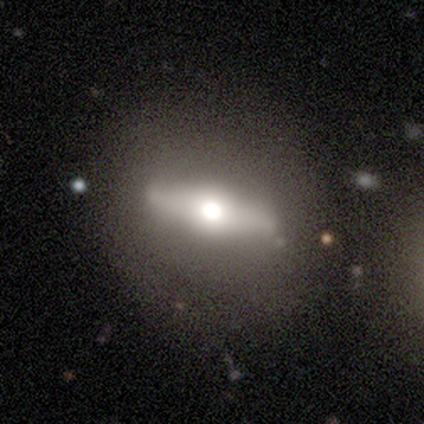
A smooth galaxy with no disk features (60%) that is round (100%).

Vote fractions:
- Smooth or featured? smooth: 60% / featured or disk: 40% / star or artifact: 0%
- How rounded? round: 100% / in between: 0% / cigar-shaped: 0%
- Merging? none: 80% / merger: 20% / minor disturbance: 0% / major disturbance: 0%